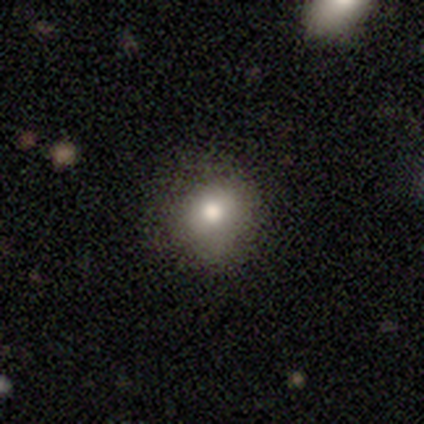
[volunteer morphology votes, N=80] Q: Smooth or featured?
A: smooth (79%); runner-up: star or artifact (11%)
Q: How rounded?
A: round (71%); runner-up: in between (29%)
Q: Merging?
A: none (49%); runner-up: minor disturbance (18%)